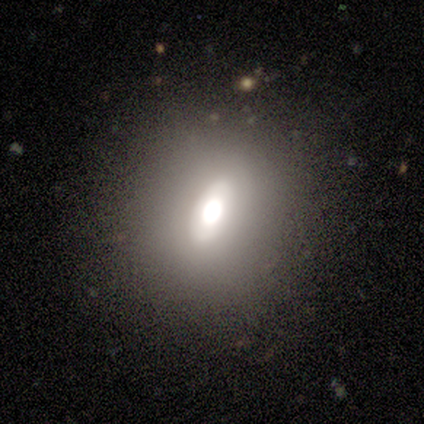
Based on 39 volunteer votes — This is marginally a smooth galaxy (44%). How rounded: likely in between (71%). Merging: likely none (77%).